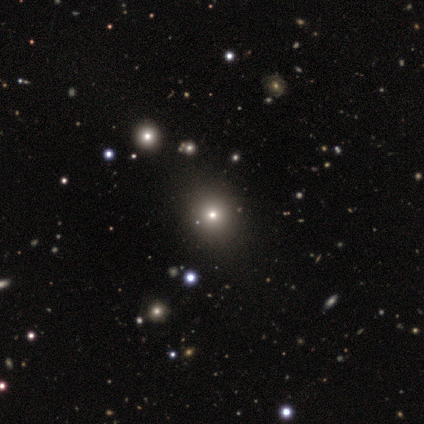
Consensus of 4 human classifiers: smooth 75%, star or artifact 25%, featured or disk 0%. Down the decision tree: how rounded — round (67%); merging — none (100%).